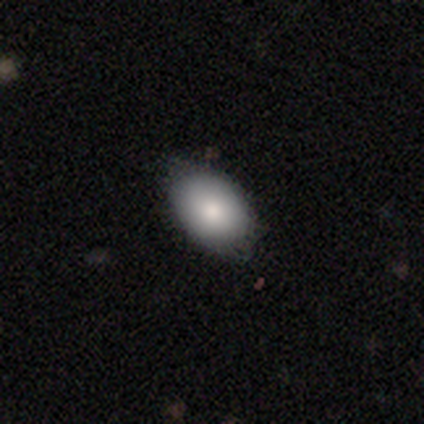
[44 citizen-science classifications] Smooth or featured: smooth — 89% (featured or disk — 9%)
How rounded: in between — 97% (round — 3%)
Merging: none — 79% (minor disturbance — 19%)